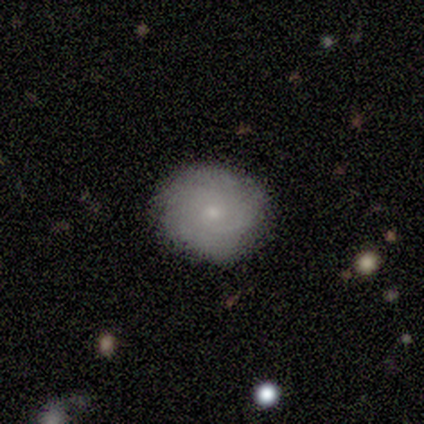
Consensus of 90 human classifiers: This is possibly a smooth galaxy (57%). How rounded: clearly round (82%). Merging: clearly none (83%).